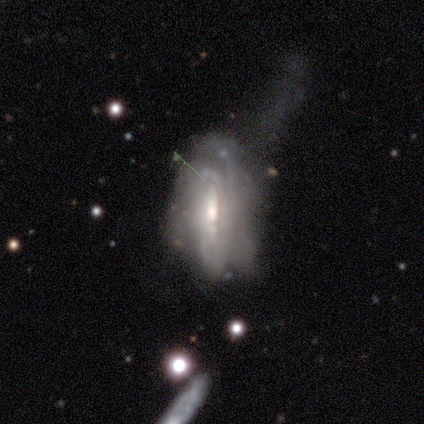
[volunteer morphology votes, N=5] Volunteers were most divided on "spiral arm count" (4-way tie): 3: 25%, 4: 25%, more than 4: 25%, can't tell: 25%, 1: 0%, 2: 0%; "merging" (2-way tie): minor disturbance: 40%, major disturbance: 40%, none: 20%, merger: 0%. More confident: smooth or featured — featured or disk (100%); edge-on disk — no (100%); spiral arms — yes (80%); bulge size — moderate (80%); spiral winding — tight (75%); bar — no (60%).